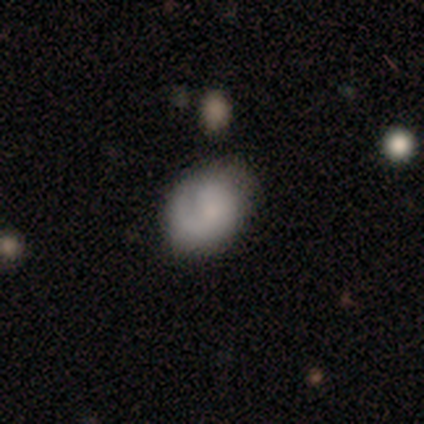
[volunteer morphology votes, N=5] Smooth or featured: featured or disk — 80% (smooth — 20%)
Edge-on disk: no — 100%
Bar: no — 100%
Spiral arms: yes — 50% (tied with no — 50%)
Spiral winding: tight — 50% (tied with medium — 50%)
Spiral arm count: 1 — 100%
Bulge size: large — 25% (tied with moderate — 25%; small — 25%; none — 25%)
Merging: none — 60% (minor disturbance — 40%)